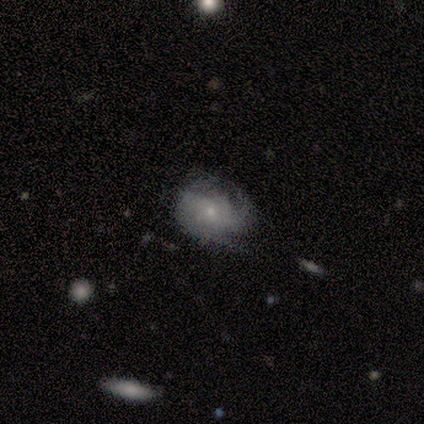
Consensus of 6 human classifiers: smooth_or_featured: featured or disk (p=0.83) [alt: smooth p=0.17]
disk_edge_on: no (p=1.00)
bar: no (p=0.60) [alt: weak p=0.40]
has_spiral_arms: yes (p=0.80) [alt: no p=0.20]
spiral_winding: loose (p=0.50) [alt: tight p=0.25]
spiral_arm_count: can't tell (p=0.75) [alt: 1 p=0.25]
bulge_size: small (p=0.60) [alt: moderate p=0.40]
merging: none (p=0.67) [alt: minor disturbance p=0.33]